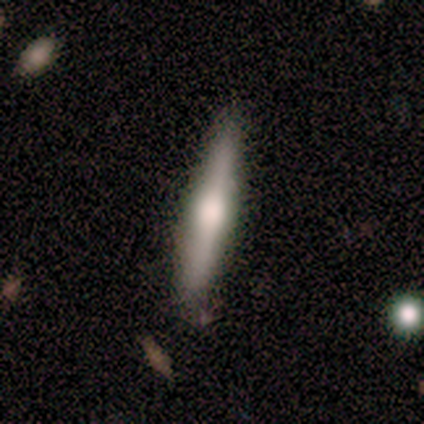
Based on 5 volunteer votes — Q: Smooth or featured?
A: featured or disk (60%); runner-up: smooth (40%)
Q: Edge-on disk?
A: yes (100%)
Q: Edge-on bulge?
A: rounded (100%)
Q: Merging?
A: none (100%)